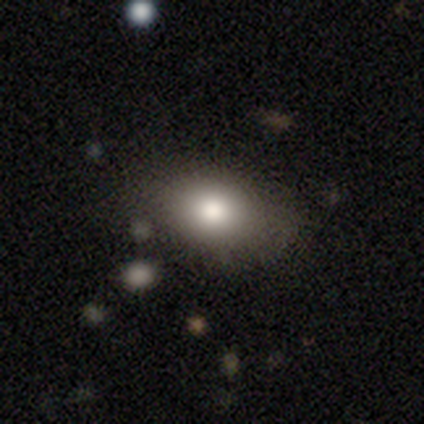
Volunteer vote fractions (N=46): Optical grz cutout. It shows a smooth galaxy with no disk features (91%) that is in between round and cigar-shaped (88%). Merging: none (80%).